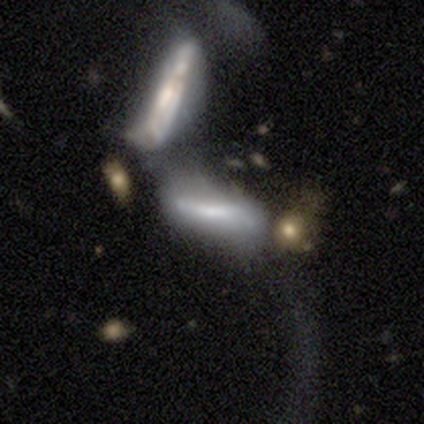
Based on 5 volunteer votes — Smooth or featured? 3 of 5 (60%) said featured or disk. Edge-on disk? 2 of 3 (67%) said yes. Edge-on bulge? 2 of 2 (100%) said rounded. Merging? 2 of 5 (40%, tied with merger) said major disturbance.